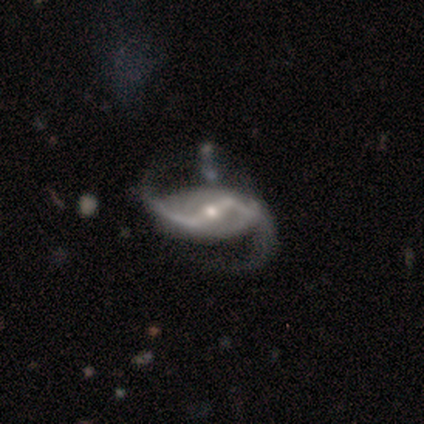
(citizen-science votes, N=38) Smooth or featured?
  - featured or disk: 89% *
  - smooth: 5%
  - star or artifact: 5%
Edge-on disk?
  - no: 100% *
  - yes: 0%
Bar?
  - strong: 65% *
  - weak: 24%
  - no: 12%
Spiral arms?
  - yes: 97% *
  - no: 3%
Spiral winding?
  - loose: 76% *
  - medium: 24%
  - tight: 0%
Spiral arm count?
  - 2: 94% *
  - 1: 3%
  - 4: 3%
  - 3: 0%
  - more than 4: 0%
  - can't tell: 0%
Bulge size?
  - small: 50% *
  - moderate: 47%
  - dominant: 3%
  - large: 0%
  - none: 0%
Merging?
  - none: 36% *
  - major disturbance: 31%
  - minor disturbance: 19%
  - merger: 14%